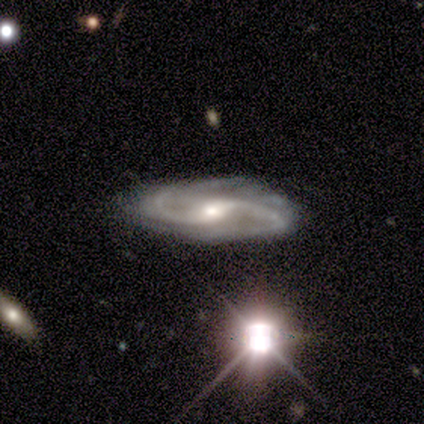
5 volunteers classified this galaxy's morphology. Volunteers were most divided on "bar" (2-way tie): strong: 50%, weak: 50%, no: 0%. More confident: smooth or featured — featured or disk (100%); spiral arms — yes (100%); edge-on disk — no (80%); merging — none (80%); spiral winding — medium (75%); spiral arm count — 2 (75%); bulge size — moderate (50%).